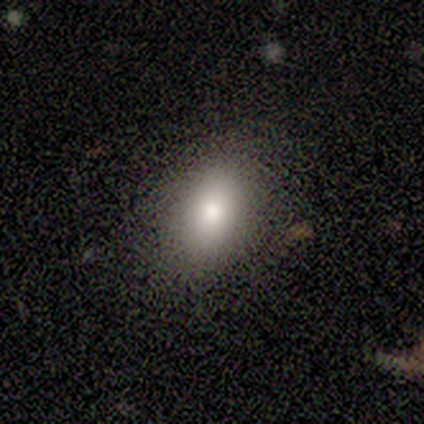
This appears to be a smooth galaxy with no disk features (100%) that is in between round and cigar-shaped (80%). Merging: none (80%).